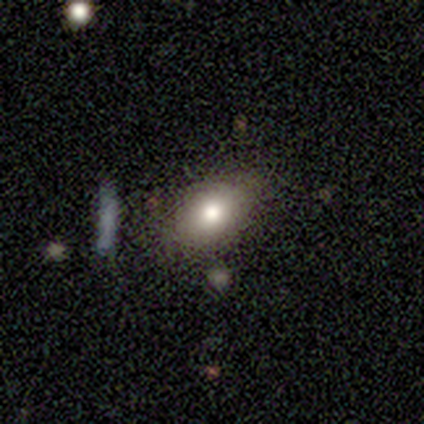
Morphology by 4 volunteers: Smooth or featured: smooth — 75% (featured or disk — 25%)
How rounded: in between — 100%
Merging: none — 75% (minor disturbance — 25%)